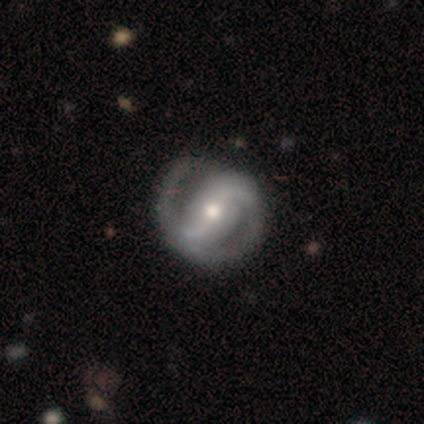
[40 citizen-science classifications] Smooth or featured: featured or disk — 88% (smooth — 12%)
Edge-on disk: no — 97% (yes — 3%)
Bar: strong — 50% (weak — 32%)
Spiral arms: yes — 94% (no — 6%)
Spiral winding: medium — 69% (tight — 22%)
Spiral arm count: 2 — 91% (1 — 6%)
Bulge size: moderate — 56% (small — 38%)
Merging: none — 78% (minor disturbance — 15%)